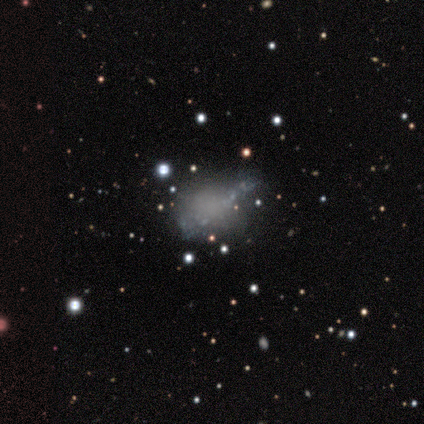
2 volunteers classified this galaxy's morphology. Smooth or featured? featured or disk (100%)
Edge-on disk? no (100%)
Bar? no (100%)
Spiral arms? no (100%)
Bulge size? none (100%)
Merging? major disturbance (50%, tied with merger)